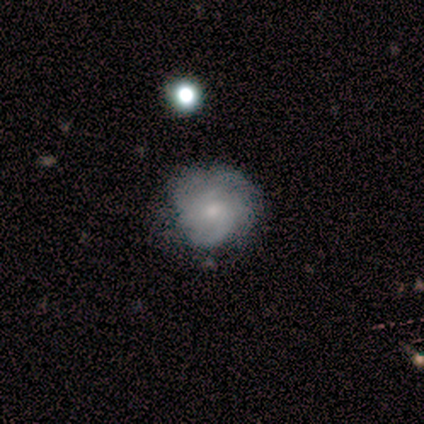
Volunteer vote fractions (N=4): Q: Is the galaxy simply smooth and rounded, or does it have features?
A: featured or disk — 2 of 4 (50%).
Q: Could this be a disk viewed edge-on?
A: no — 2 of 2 (100%).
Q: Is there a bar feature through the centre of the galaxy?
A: no — 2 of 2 (100%).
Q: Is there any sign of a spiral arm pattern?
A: yes — 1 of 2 (50%, tied with no).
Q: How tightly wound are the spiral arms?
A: medium — 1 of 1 (100%).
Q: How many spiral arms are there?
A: can't tell — 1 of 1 (100%).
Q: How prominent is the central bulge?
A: moderate — 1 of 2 (50%, tied with none).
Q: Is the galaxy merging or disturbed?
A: none — 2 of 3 (67%).